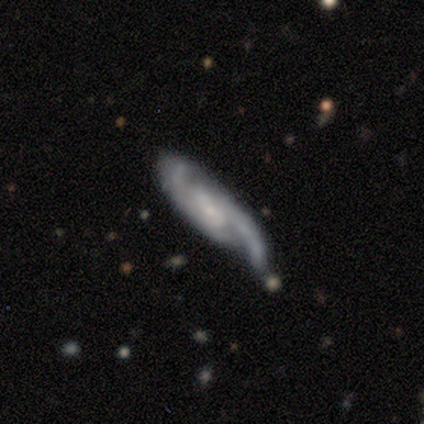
Overall: featured or disk (75%). Edge-on disk: no (100%). Bar: no (67%; weak 33%). Spiral arms: yes (100%). Spiral arm count: 2 (100%). Spiral winding: tight (33%, tied with medium and loose). Bulge size: small (100%). Merging: major disturbance (75%).